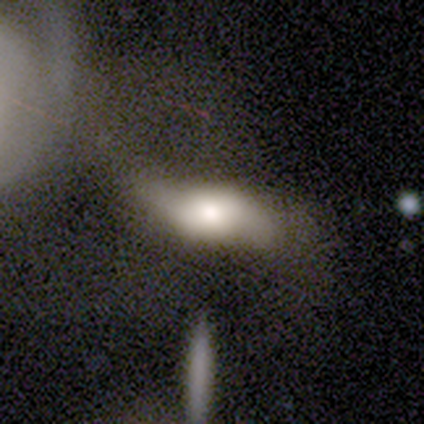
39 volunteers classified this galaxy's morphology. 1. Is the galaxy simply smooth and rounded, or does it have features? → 56% smooth, 33% featured or disk, 10% star or artifact.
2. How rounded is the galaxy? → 73% in between, 14% round, 14% cigar-shaped.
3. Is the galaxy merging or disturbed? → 46% none, 26% minor disturbance, 20% major disturbance, 9% merger.